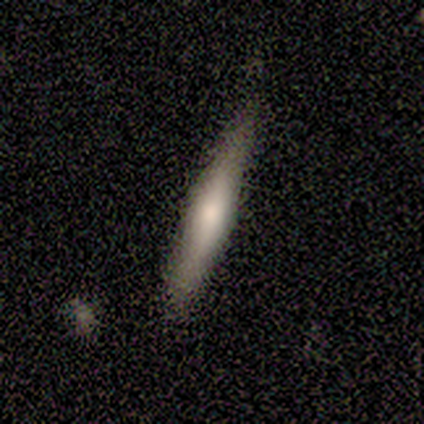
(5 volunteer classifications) This appears to be a smooth galaxy with no disk features (60%) that is cigar-shaped (100%). Merging: minor disturbance (67%).